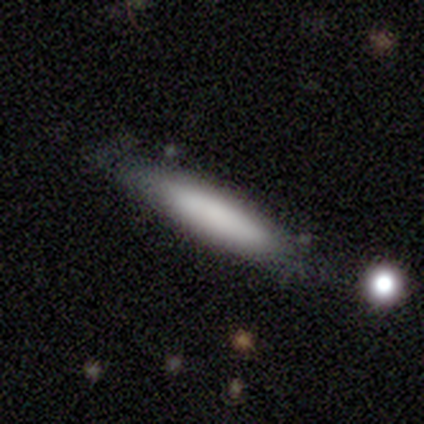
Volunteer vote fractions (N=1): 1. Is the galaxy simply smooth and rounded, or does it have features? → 100% featured or disk, 0% smooth, 0% star or artifact.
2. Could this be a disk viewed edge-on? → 100% yes, 0% no.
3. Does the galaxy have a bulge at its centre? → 100% none, 0% boxy, 0% rounded.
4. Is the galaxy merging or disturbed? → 100% none, 0% minor disturbance, 0% major disturbance, 0% merger.